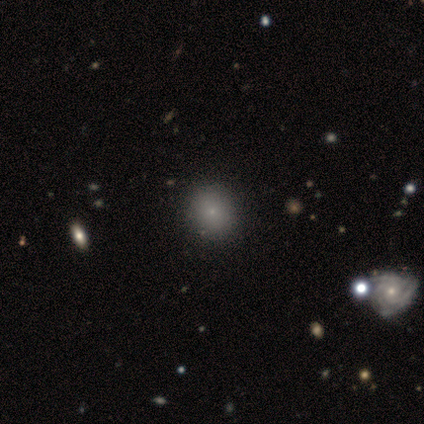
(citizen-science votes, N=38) Overall: smooth (76%). How rounded: round (90%). Merging: none (53%).